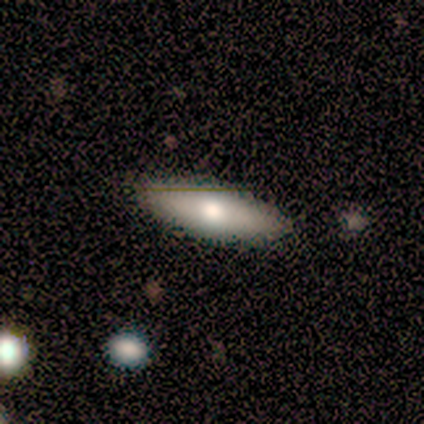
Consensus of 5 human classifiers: A smooth galaxy with no disk features (80%) that is in between round and cigar-shaped (75%). Merging: none (100%).